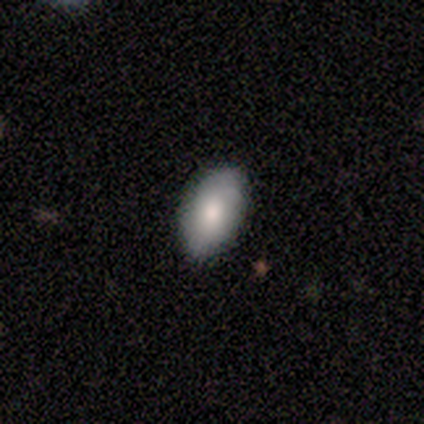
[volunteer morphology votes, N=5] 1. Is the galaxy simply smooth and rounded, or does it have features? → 60% smooth, 40% featured or disk, 0% star or artifact.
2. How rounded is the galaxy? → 100% in between, 0% round, 0% cigar-shaped.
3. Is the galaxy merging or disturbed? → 100% none, 0% minor disturbance, 0% major disturbance, 0% merger.